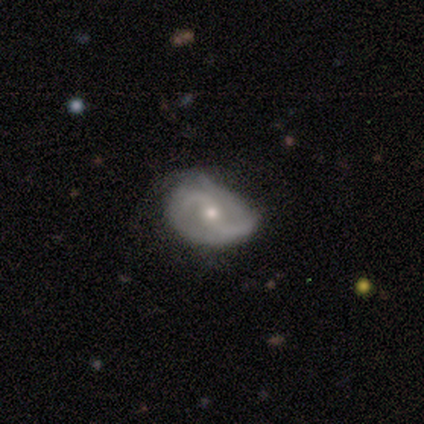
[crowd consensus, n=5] smooth-or-featured: featured or disk: 80% | smooth: 20% | star or artifact: 0%
  disk-edge-on: no: 100% | yes: 0%
    bar: no: 50% | strong: 25% | weak: 25%
    has-spiral-arms: yes: 100% | no: 0%
      spiral-winding: medium: 50% (tied) | loose: 50% (tied) | tight: 0%
      spiral-arm-count: 2: 75% | can't tell: 25% | 1: 0% | 3: 0% | 4: 0% | more than 4: 0%
    bulge-size: moderate: 75% | small: 25% | dominant: 0% | large: 0% | none: 0%
  merging: major disturbance: 60% | none: 20% | minor disturbance: 20% | merger: 0%